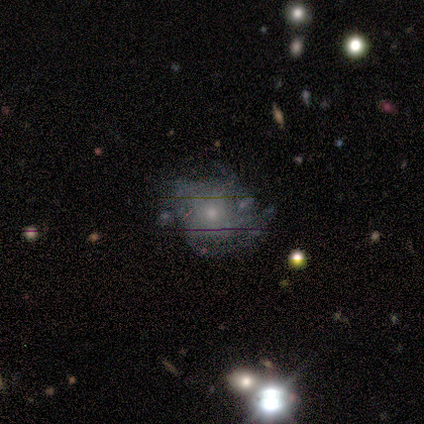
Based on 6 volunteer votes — Volunteers were most divided on "smooth or featured": star or artifact: 67%, featured or disk: 33%, smooth: 0%.